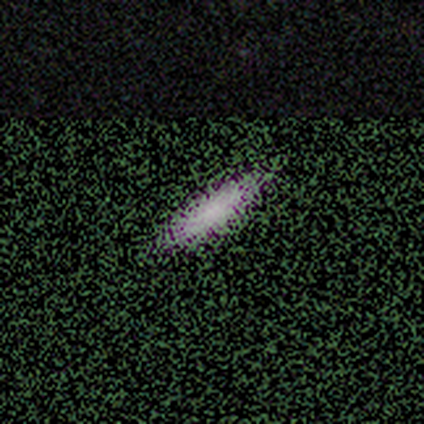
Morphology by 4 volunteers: type=smooth (50%); roundness=cigar-shaped (100%); merging=none (100%).